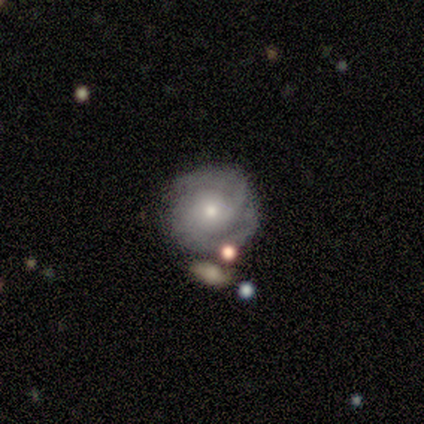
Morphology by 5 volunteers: Smooth or featured: featured or disk — 80% (star or artifact — 20%)
Edge-on disk: no — 100%
Bar: no — 75% (weak — 25%)
Spiral arms: yes — 100%
Spiral winding: tight — 100%
Spiral arm count: 2 — 75% (3 — 25%)
Bulge size: small — 75% (moderate — 25%)
Merging: none — 75% (merger — 25%)